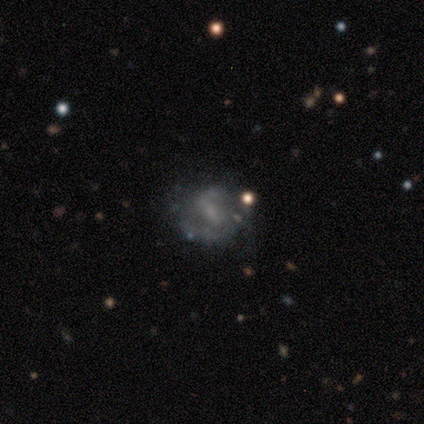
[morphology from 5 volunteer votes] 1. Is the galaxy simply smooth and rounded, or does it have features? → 60% featured or disk, 40% smooth, 0% star or artifact.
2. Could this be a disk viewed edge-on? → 100% no, 0% yes.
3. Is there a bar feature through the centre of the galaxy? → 67% strong, 33% weak, 0% no.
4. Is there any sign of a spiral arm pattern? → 67% yes, 33% no.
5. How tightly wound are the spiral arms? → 100% medium, 0% tight, 0% loose.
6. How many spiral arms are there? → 50% 2 (tied), 50% 3 (tied), 0% 1, 0% 4, 0% more than 4, 0% can't tell.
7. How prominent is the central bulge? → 67% none, 33% moderate, 0% dominant, 0% large, 0% small.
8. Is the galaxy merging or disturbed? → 60% none, 40% minor disturbance, 0% major disturbance, 0% merger.